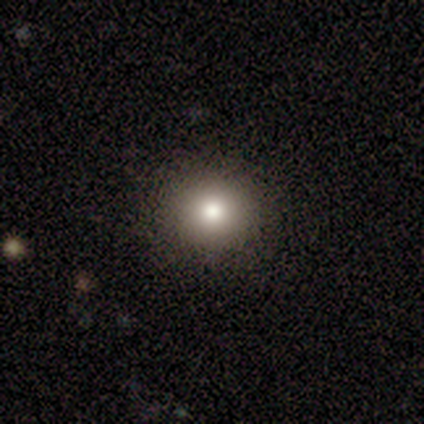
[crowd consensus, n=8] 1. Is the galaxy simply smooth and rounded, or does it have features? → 62% smooth, 25% star or artifact, 12% featured or disk.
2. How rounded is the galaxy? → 80% round, 20% in between, 0% cigar-shaped.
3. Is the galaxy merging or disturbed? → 83% none, 17% minor disturbance, 0% major disturbance, 0% merger.